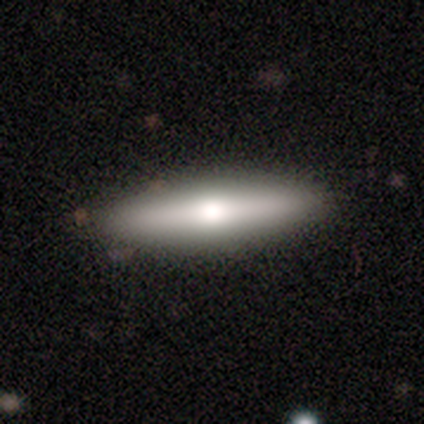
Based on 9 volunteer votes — featured or disk 56%, smooth 33%, star or artifact 11%. Down the decision tree: edge-on disk — yes (100%); edge-on bulge — rounded (100%); merging — none (100%).